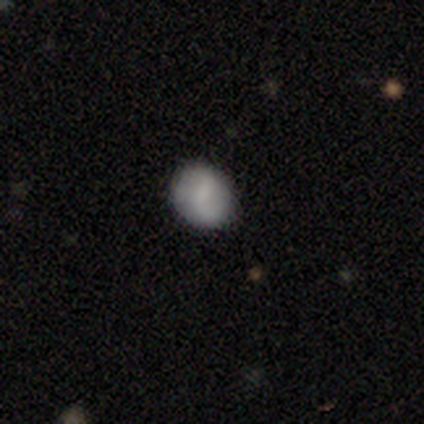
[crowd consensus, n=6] Smooth or featured? 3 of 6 (50%, tied with featured or disk) said smooth. How rounded? 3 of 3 (100%) said round. Merging? 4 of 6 (67%) said none.